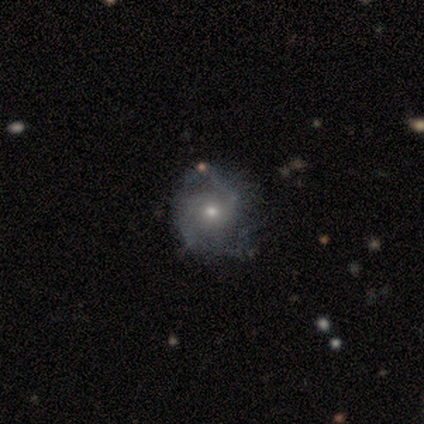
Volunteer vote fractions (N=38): Morphology: type=featured or disk (76%); edge-on=no (100%); bar=no (72%); spiral arms=yes (86%); winding=medium (52%); arm count=2 (64%); bulge=small (66%); merging=none (62%).